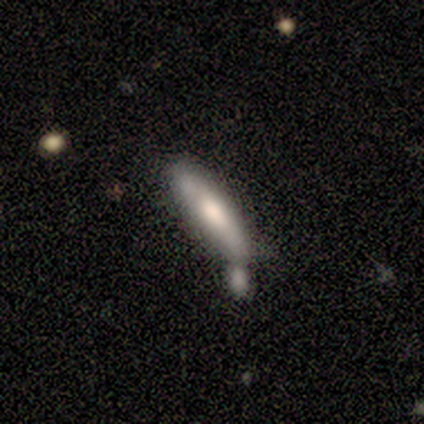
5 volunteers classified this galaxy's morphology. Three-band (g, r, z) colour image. It shows a smooth galaxy with no disk features (100%) that is cigar-shaped (100%). Merging: merger (60%).